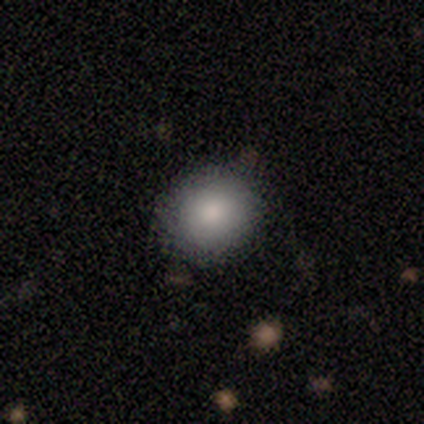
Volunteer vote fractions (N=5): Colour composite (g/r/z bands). It shows a smooth galaxy with no disk features (100%) that is round (80%). Merging: none (100%).